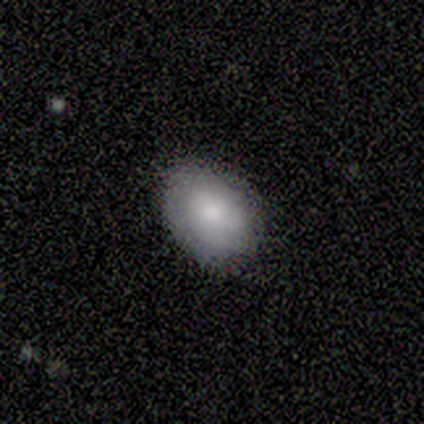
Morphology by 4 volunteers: Smooth or featured: smooth — 75% (star or artifact — 25%)
How rounded: in between — 67% (round — 33%)
Merging: none — 100%